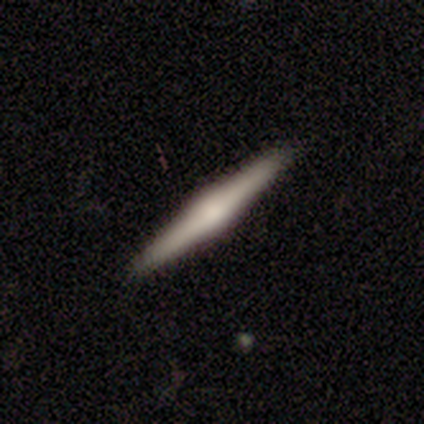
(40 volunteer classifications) Smooth or featured?
  - featured or disk: 65% *
  - smooth: 30%
  - star or artifact: 5%
Edge-on disk?
  - yes: 96% *
  - no: 4%
Edge-on bulge?
  - rounded: 84% *
  - none: 12%
  - boxy: 4%
Merging?
  - none: 92% *
  - minor disturbance: 8%
  - major disturbance: 0%
  - merger: 0%